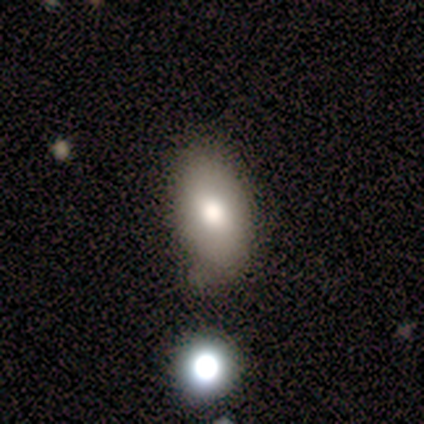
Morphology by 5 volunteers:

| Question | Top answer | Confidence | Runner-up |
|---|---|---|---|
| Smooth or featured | smooth | 60% | featured or disk (20%) |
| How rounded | in between | 67% | round (33%) |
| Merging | none | 75% | major disturbance (25%) |